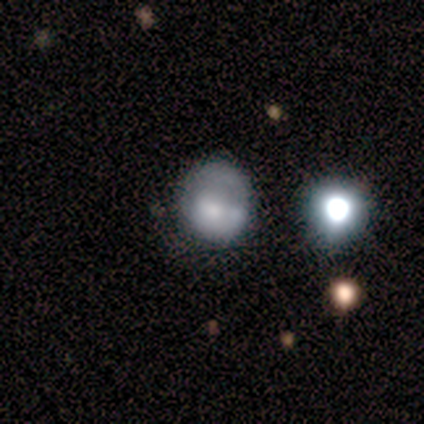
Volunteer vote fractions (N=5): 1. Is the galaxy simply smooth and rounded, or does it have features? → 60% smooth, 20% featured or disk, 20% star or artifact.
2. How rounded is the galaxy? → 100% round, 0% in between, 0% cigar-shaped.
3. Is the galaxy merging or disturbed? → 50% none (tied), 50% major disturbance (tied), 0% minor disturbance, 0% merger.